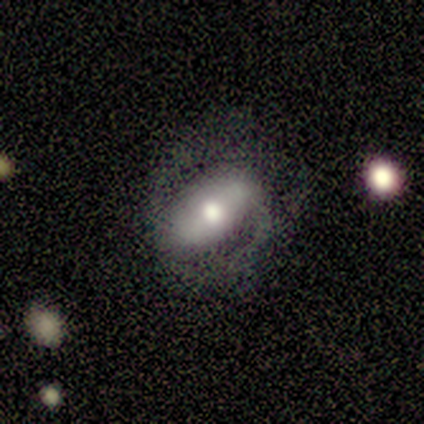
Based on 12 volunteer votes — A featured or disk galaxy (67%) with a strong bar (50%), 2 (100%) tight (33%, tied with medium and loose) spiral arms (50%, tied with no) and a moderate central bulge (83%). Merging: none (60%).